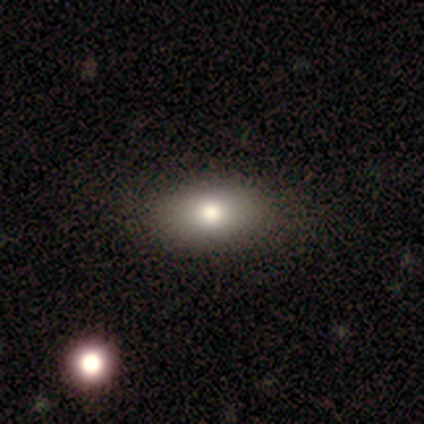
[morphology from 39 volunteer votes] Volunteers were most divided on "merging": none: 60%, minor disturbance: 3%, major disturbance: 3%, merger: 0%. More confident: how rounded — in between (90%); smooth or featured — smooth (77%).